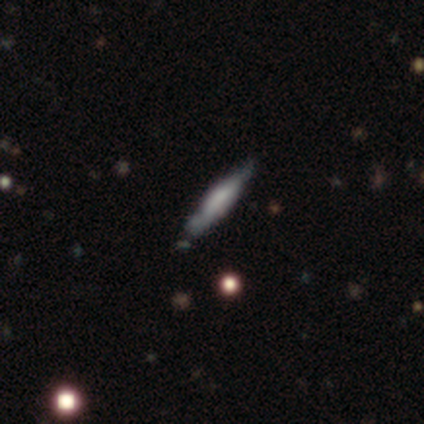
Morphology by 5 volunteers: Overall: featured or disk (80%). Edge-on disk: yes (100%). Edge-on bulge: boxy (75%). Merging: none (100%).